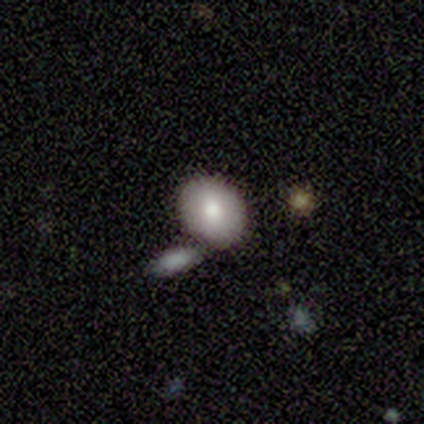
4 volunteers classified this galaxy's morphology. A smooth galaxy with no disk features (100%) that is round (75%). Merging: none (75%).